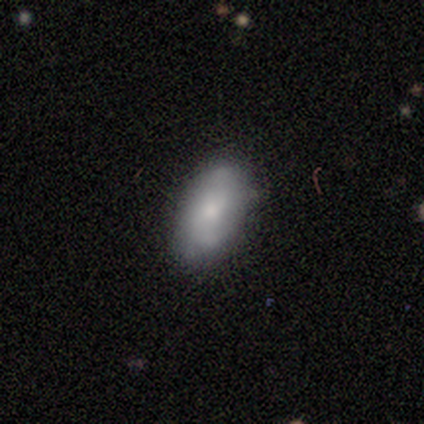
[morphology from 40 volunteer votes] This appears to be a smooth galaxy with no disk features (68%) that is in between round and cigar-shaped (93%). Merging: none (82%).